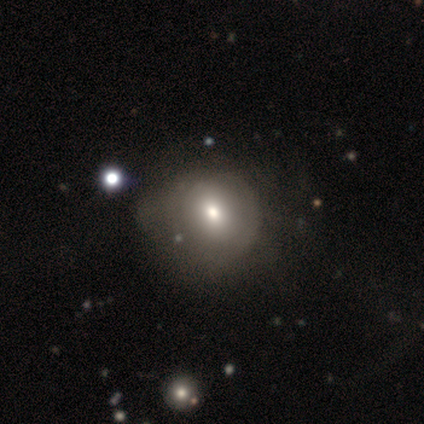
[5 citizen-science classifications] This appears to be a smooth galaxy with no disk features (100%) that is round (100%). Merging: none (40%, tied with major disturbance).